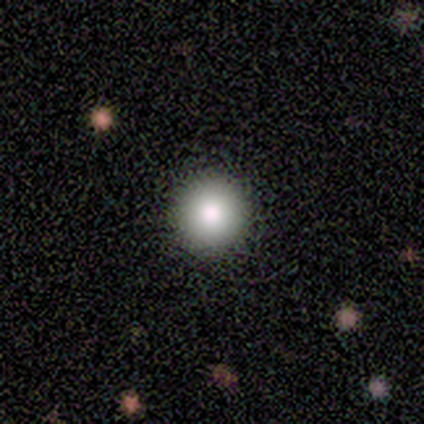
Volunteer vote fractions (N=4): smooth-or-featured: smooth: 75% | star or artifact: 25% | featured or disk: 0%
  how-rounded: round: 100% | in between: 0% | cigar-shaped: 0%
  merging: none: 100% | minor disturbance: 0% | major disturbance: 0% | merger: 0%